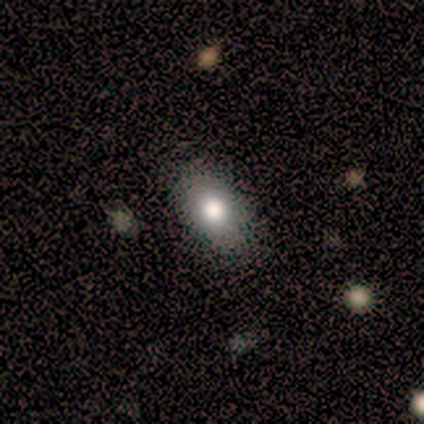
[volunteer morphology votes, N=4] smooth-or-featured: smooth: 75% | star or artifact: 25% | featured or disk: 0%
  how-rounded: in between: 67% | round: 33% | cigar-shaped: 0%
  merging: none: 67% | major disturbance: 33% | minor disturbance: 0% | merger: 0%